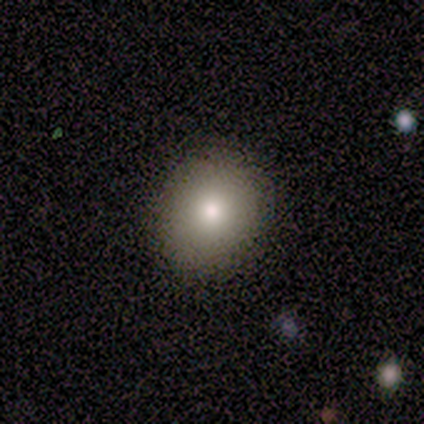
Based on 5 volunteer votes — Overall: smooth (100%). How rounded: round (80%). Merging: none (60%; minor disturbance 40%).